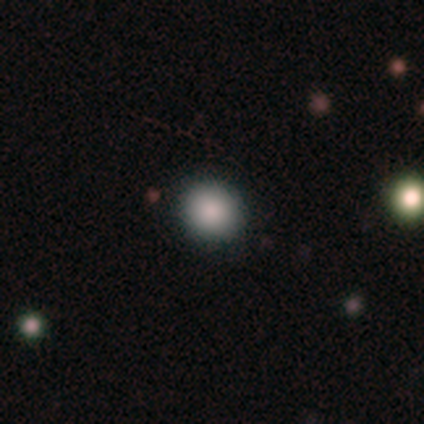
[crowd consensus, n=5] Smooth or featured? smooth (60%)
How rounded? round (100%)
Merging? none (100%)